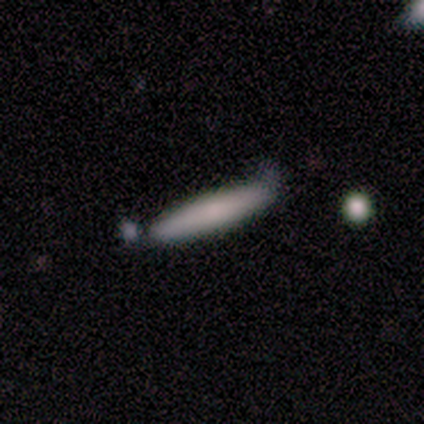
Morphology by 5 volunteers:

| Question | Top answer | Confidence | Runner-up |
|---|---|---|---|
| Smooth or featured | smooth | 80% | featured or disk (20%) |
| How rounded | cigar-shaped | 100% | — |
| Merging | none | 60% | minor disturbance (20%) |